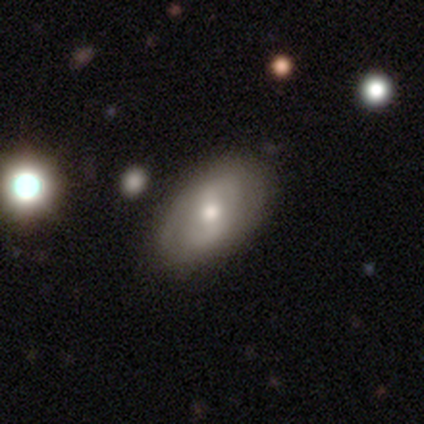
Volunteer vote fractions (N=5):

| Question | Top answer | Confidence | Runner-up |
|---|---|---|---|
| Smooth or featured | smooth | 60% | featured or disk (40%) |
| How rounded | in between | 100% | — |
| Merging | none | 60% | minor disturbance (40%) |